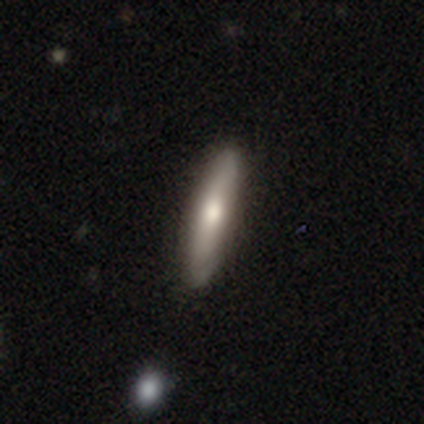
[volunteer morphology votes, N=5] Smooth or featured? smooth (60%)
How rounded? cigar-shaped (100%)
Merging? none (80%)